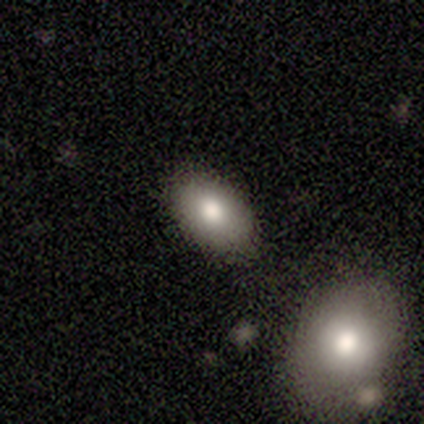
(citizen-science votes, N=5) A smooth galaxy with no disk features (60%) that is in between round and cigar-shaped (67%).

Vote fractions:
- Smooth or featured? smooth: 60% / featured or disk: 40% / star or artifact: 0%
- How rounded? in between: 67% / round: 33% / cigar-shaped: 0%
- Merging? none: 80% / minor disturbance: 20% / major disturbance: 0% / merger: 0%